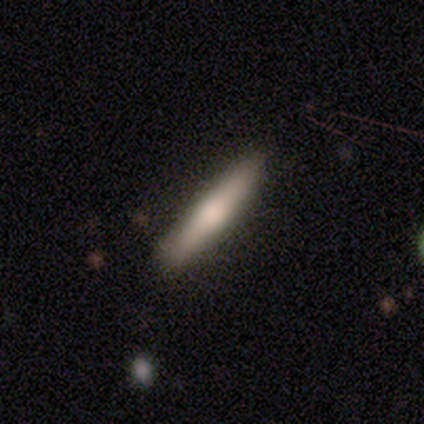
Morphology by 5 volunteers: type=smooth (60%); roundness=cigar-shaped (67%); merging=none (80%).